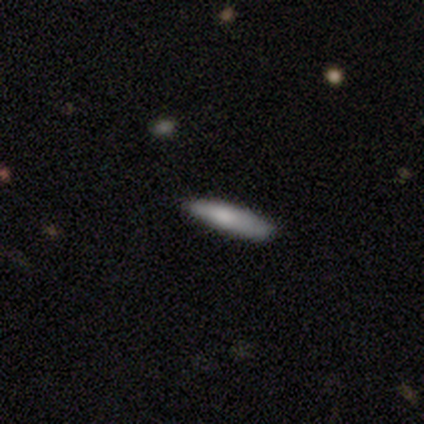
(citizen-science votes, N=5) A smooth galaxy with no disk features (40%, tied with star or artifact) that is in between round and cigar-shaped (50%, tied with cigar-shaped). Merging: minor disturbance (67%).